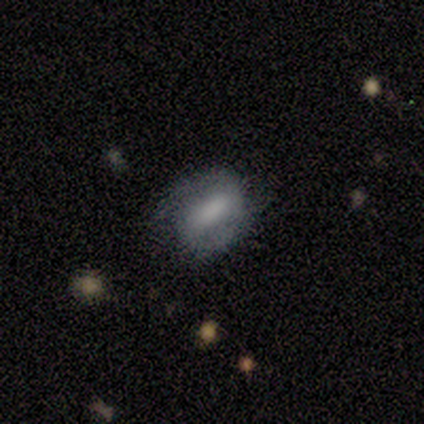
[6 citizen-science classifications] Overall: featured or disk (67%; smooth 33%). Edge-on disk: no (100%). Bar: weak (50%; strong 25%). Spiral arms: yes (100%). Spiral arm count: 1 (50%, tied with 2). Spiral winding: tight (50%; medium 25%). Bulge size: large (50%; dominant 25%). Merging: none (50%; minor disturbance 33%).